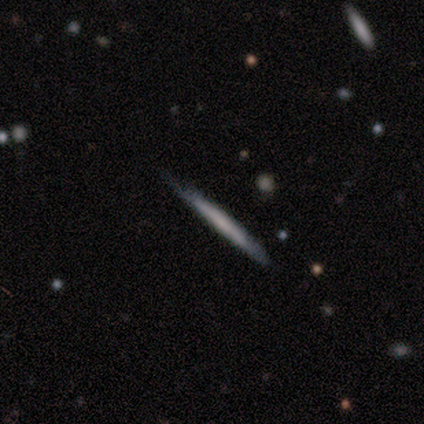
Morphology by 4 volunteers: A smooth galaxy with no disk features (75%) that is cigar-shaped (100%). Merging: none (75%).